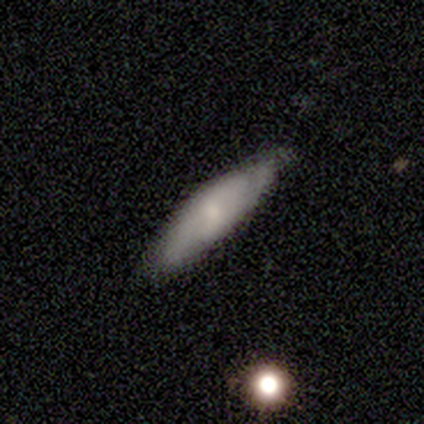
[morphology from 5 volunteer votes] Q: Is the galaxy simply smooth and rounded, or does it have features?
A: smooth — 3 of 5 (60%).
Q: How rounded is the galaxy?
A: in between — 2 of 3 (67%).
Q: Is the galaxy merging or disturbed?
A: none — 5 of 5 (100%).